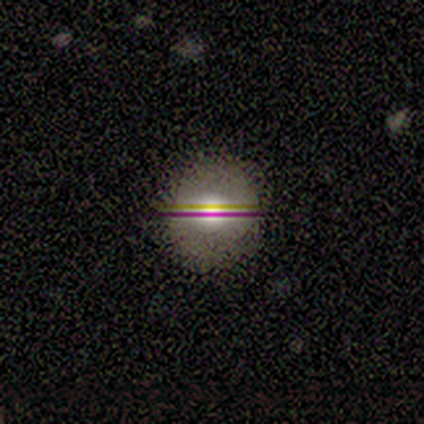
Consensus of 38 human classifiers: smooth_or_featured: smooth (p=0.45) [alt: star or artifact p=0.42]
how_rounded: round (p=0.82) [alt: cigar-shaped p=0.12]
merging: none (p=0.95) [alt: major disturbance p=0.05]